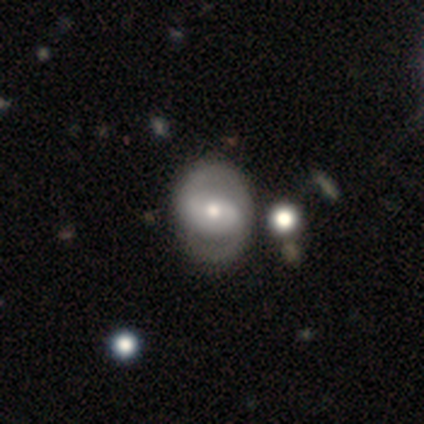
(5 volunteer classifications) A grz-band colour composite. It shows a featured or disk galaxy (100%) with a strong bar (80%), 2 (100%) medium (100%) spiral arms (100%) and a moderate central bulge (60%). Merging: none (40%, tied with minor disturbance).